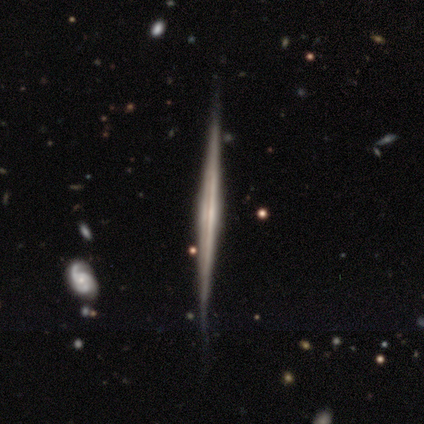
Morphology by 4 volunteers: smooth_or_featured: featured or disk (p=1.00)
disk_edge_on: yes (p=1.00)
edge_on_bulge: rounded (p=0.50) [alt: boxy p=0.25]
merging: none (p=0.75) [alt: minor disturbance p=0.25]